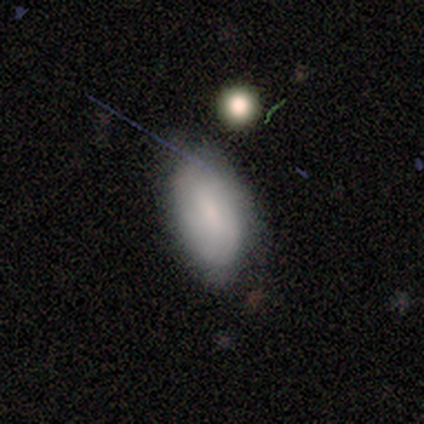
Morphology: type=smooth (50%); roundness=round (50%, tied with in between); merging=none (33%, tied with minor disturbance and merger).